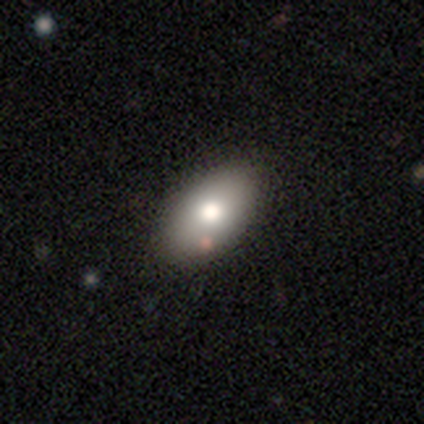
smooth_or_featured: smooth (p=0.81) [alt: star or artifact p=0.16]
how_rounded: in between (p=0.93) [alt: round p=0.03]
merging: none (p=0.55) [alt: minor disturbance p=0.06]